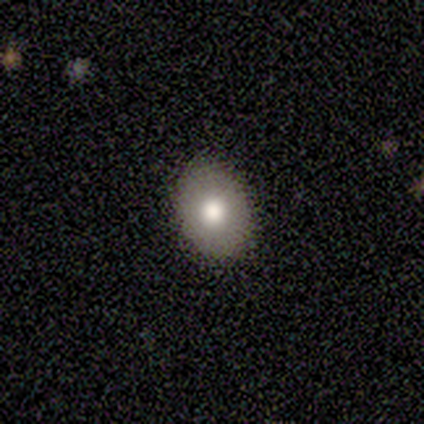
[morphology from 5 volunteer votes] smooth 80%, featured or disk 20%, star or artifact 0%. Down the decision tree: how rounded — round (50%, tied with in between); merging — none (100%).